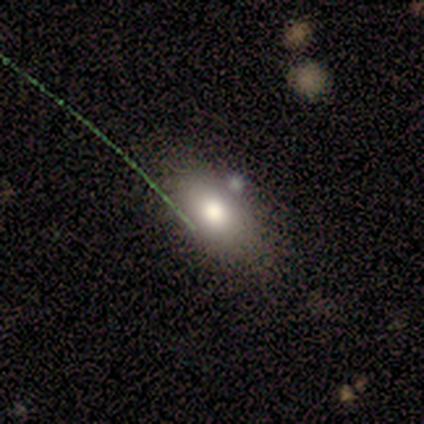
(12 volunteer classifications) Smooth or featured?
  - smooth: 83% *
  - featured or disk: 8%
  - star or artifact: 8%
How rounded?
  - in between: 100% *
  - round: 0%
  - cigar-shaped: 0%
Merging?
  - none: 64% *
  - minor disturbance: 18%
  - merger: 18%
  - major disturbance: 0%